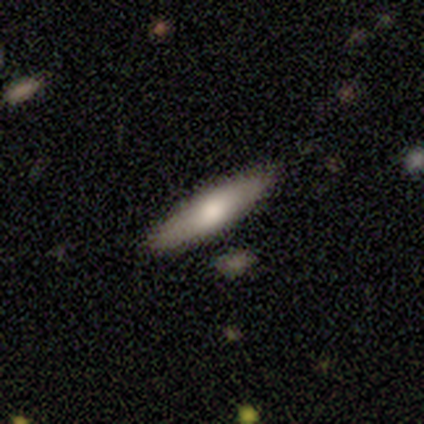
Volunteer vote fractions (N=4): Smooth or featured: smooth — 50% (tied with featured or disk — 50%)
How rounded: cigar-shaped — 100%
Merging: none — 100%